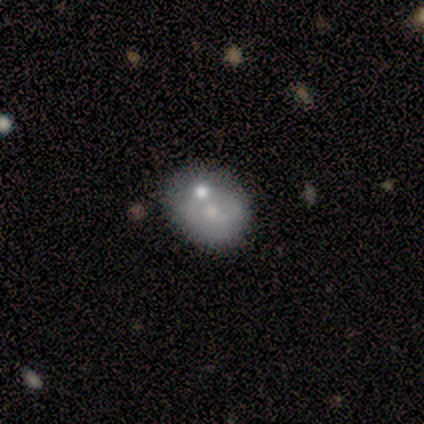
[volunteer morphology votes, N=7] A featured or disk galaxy (57%) with no bar (100%), no spiral arms (100%) and a moderate central bulge (50%, tied with small). Merging: merger (83%).